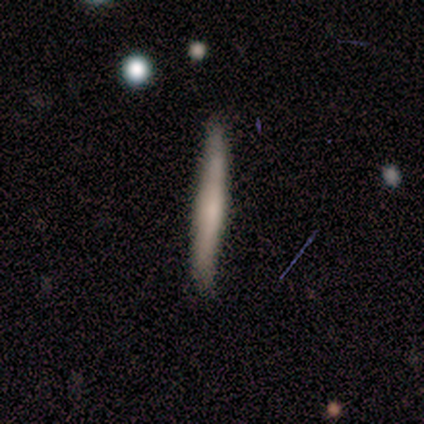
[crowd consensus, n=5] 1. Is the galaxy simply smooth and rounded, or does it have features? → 100% smooth, 0% featured or disk, 0% star or artifact.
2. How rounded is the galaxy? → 100% cigar-shaped, 0% round, 0% in between.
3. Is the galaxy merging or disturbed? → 80% none, 20% minor disturbance, 0% major disturbance, 0% merger.